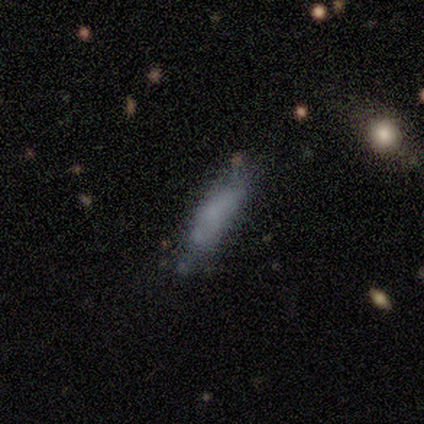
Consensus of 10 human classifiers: A smooth galaxy with no disk features (70%) that is cigar-shaped (71%).

Vote fractions:
- Smooth or featured? smooth: 70% / star or artifact: 20% / featured or disk: 10%
- How rounded? cigar-shaped: 71% / in between: 29% / round: 0%
- Merging? none: 38% (tied) / minor disturbance: 38% (tied) / major disturbance: 12% / merger: 12%